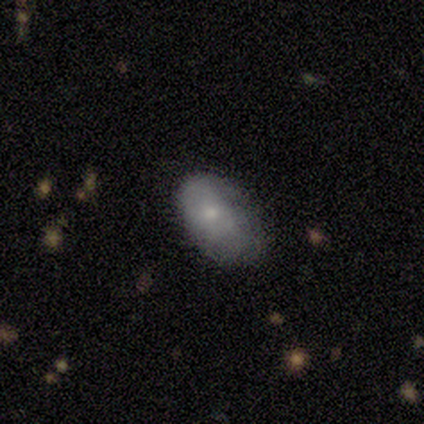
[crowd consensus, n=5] This appears to be a smooth galaxy with no disk features (80%) that is in between round and cigar-shaped (100%). Merging: none (60%).